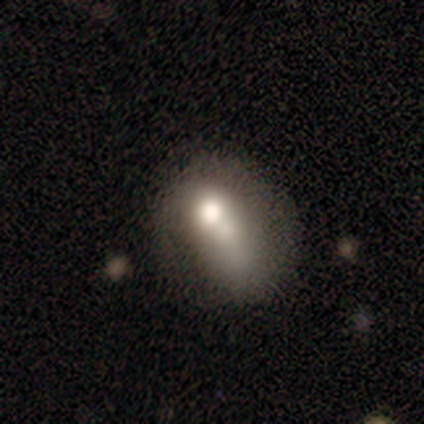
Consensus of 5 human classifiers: A smooth galaxy with no disk features (60%) that is round (33%, tied with in between and cigar-shaped).

Vote fractions:
- Smooth or featured? smooth: 60% / featured or disk: 20% / star or artifact: 20%
- How rounded? round: 33% (tied) / in between: 33% (tied) / cigar-shaped: 33% (tied)
- Merging? none: 50% / minor disturbance: 25% / major disturbance: 25% / merger: 0%